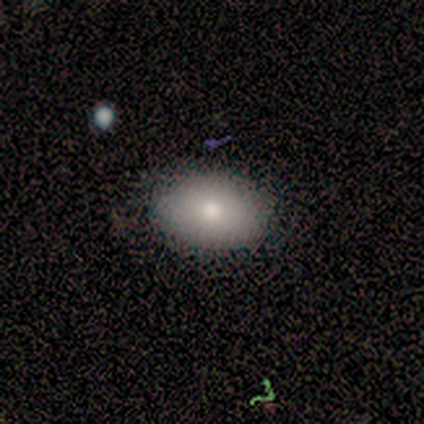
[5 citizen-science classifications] This is clearly a smooth galaxy (100%). How rounded: likely in between (60%). Merging: clearly none (80%).